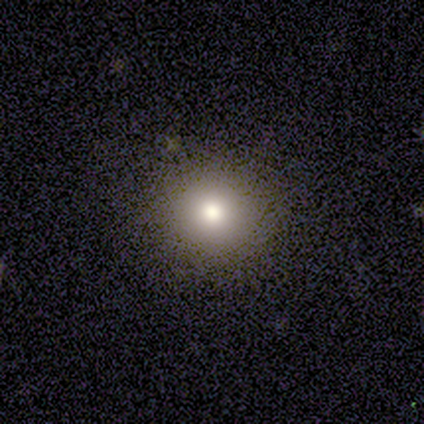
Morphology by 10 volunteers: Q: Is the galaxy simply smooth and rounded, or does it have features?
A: smooth — 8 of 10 (80%).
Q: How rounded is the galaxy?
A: round — 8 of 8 (100%).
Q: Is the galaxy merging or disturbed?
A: none — 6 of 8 (75%).